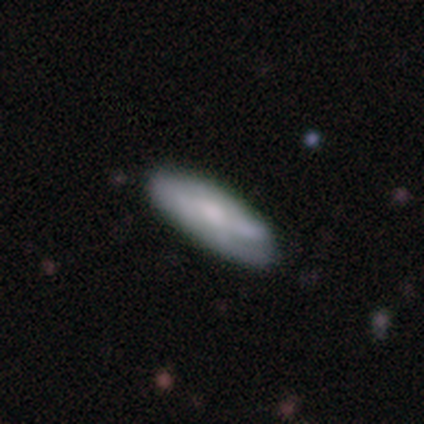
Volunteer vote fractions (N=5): Overall: smooth (80%). How rounded: in between (75%). Merging: minor disturbance (60%; none 40%).